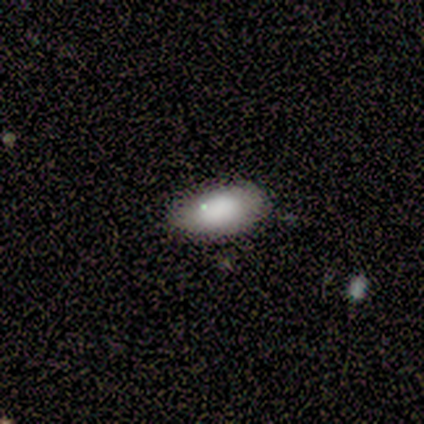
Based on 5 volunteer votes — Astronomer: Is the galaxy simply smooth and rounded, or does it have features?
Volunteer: smooth — 80%.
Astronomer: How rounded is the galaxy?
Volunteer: in between — 100%.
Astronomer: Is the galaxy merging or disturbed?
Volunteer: none — 60% (runner-up: minor disturbance, 40%).